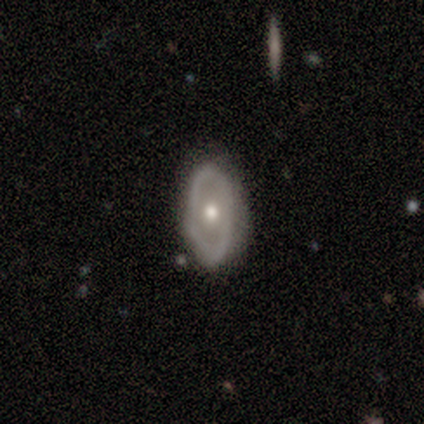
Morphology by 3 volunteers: Q: Smooth or featured?
A: smooth (67%); runner-up: featured or disk (33%)
Q: How rounded?
A: in between (100%)
Q: Merging?
A: none (100%)